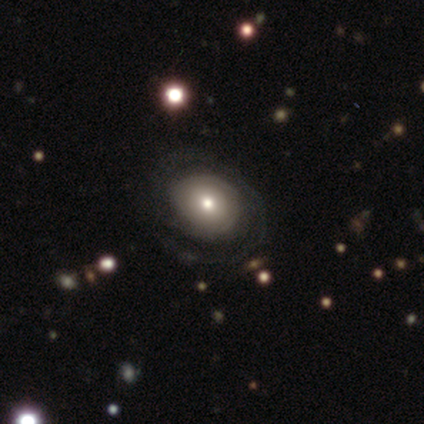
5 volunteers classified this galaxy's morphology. This appears to be a featured or disk galaxy (60%) with no bar (100%), 2 (50%, tied with can't tell) tight (50%, tied with loose) spiral arms (67%) and a small central bulge (67%). Merging: none (75%).